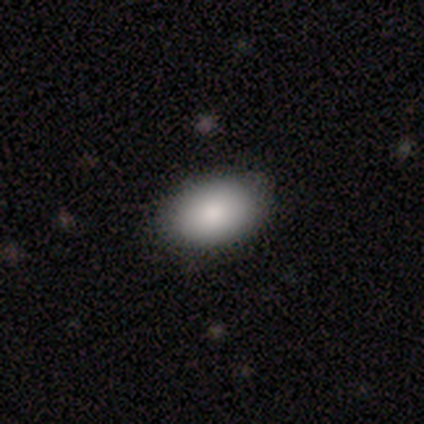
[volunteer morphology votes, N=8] Overall: smooth (88%). How rounded: in between (86%). Merging: none (100%).